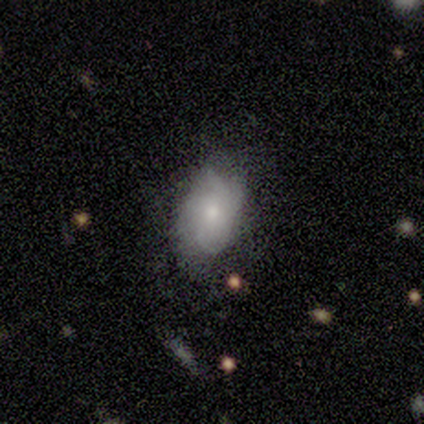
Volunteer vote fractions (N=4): Smooth or featured? smooth (50%, tied with featured or disk)
How rounded? in between (100%)
Merging? none (50%, tied with major disturbance)